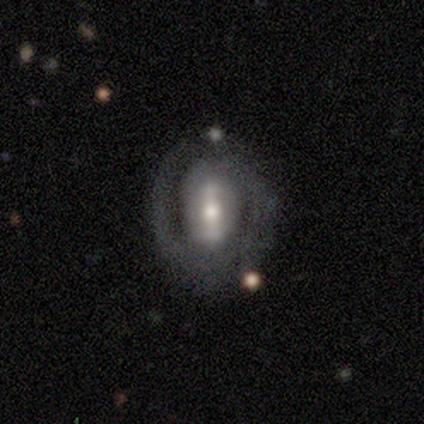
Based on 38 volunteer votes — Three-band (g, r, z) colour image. It shows a featured or disk galaxy (89%) with a strong bar (74%), 2 (80%) tight (50%) spiral arms (65%) and a moderate central bulge (68%). Merging: none (70%).